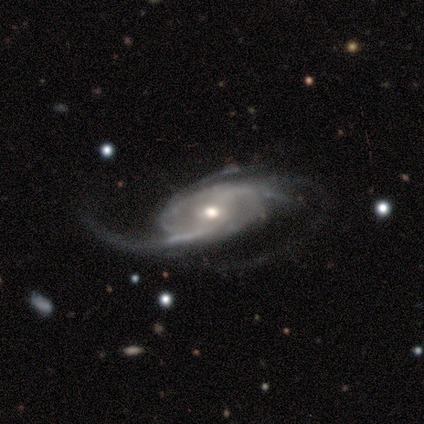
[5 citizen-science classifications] featured or disk 100%, smooth 0%, star or artifact 0%. Down the decision tree: edge-on disk — no (100%); bar — weak (40%, tied with no); spiral arms — yes (100%); spiral arm count — 3 (60%); spiral winding — loose (60%); bulge size — moderate (80%); merging — none (80%).